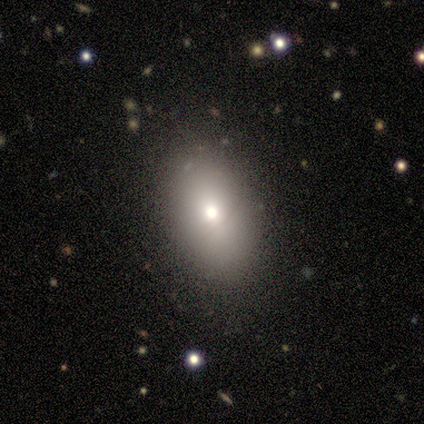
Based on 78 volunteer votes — smooth 81%, featured or disk 10%, star or artifact 9%. Down the decision tree: how rounded — in between (87%); merging — none (83%).